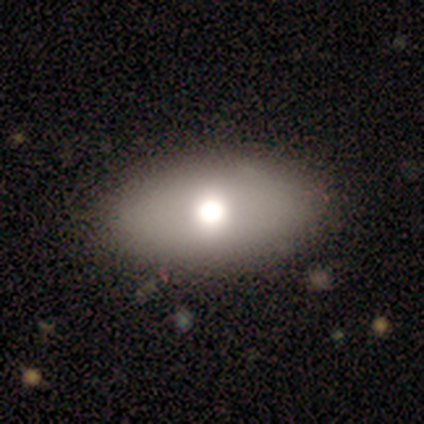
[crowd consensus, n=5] A smooth galaxy with no disk features (60%) that is in between round and cigar-shaped (67%).

Vote fractions:
- Smooth or featured? smooth: 60% / featured or disk: 40% / star or artifact: 0%
- How rounded? in between: 67% / round: 33% / cigar-shaped: 0%
- Merging? none: 80% / major disturbance: 20% / minor disturbance: 0% / merger: 0%